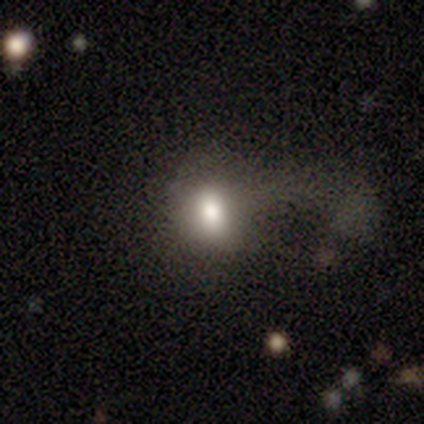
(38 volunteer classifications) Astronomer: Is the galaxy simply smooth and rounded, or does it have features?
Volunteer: smooth — 76%.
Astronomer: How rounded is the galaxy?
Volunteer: in between — 55% (runner-up: round, 45%).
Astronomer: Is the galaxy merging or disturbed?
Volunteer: major disturbance — 44% (runner-up: none, 26%).